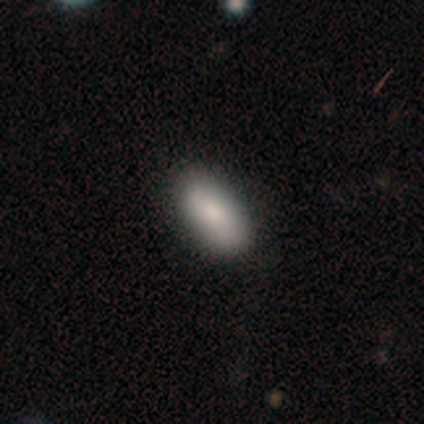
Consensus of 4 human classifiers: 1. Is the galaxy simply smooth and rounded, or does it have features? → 100% smooth, 0% featured or disk, 0% star or artifact.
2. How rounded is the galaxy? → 75% in between, 25% cigar-shaped, 0% round.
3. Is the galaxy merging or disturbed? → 100% none, 0% minor disturbance, 0% major disturbance, 0% merger.